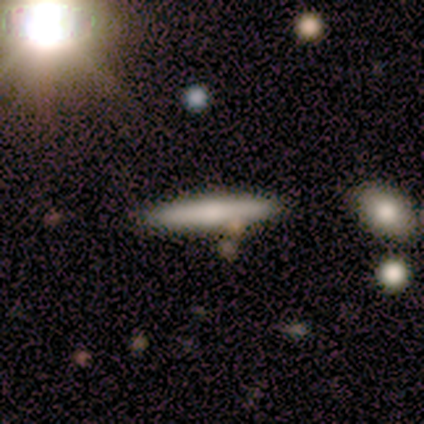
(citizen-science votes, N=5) Smooth or featured? smooth (60%)
How rounded? cigar-shaped (100%)
Merging? none (100%)